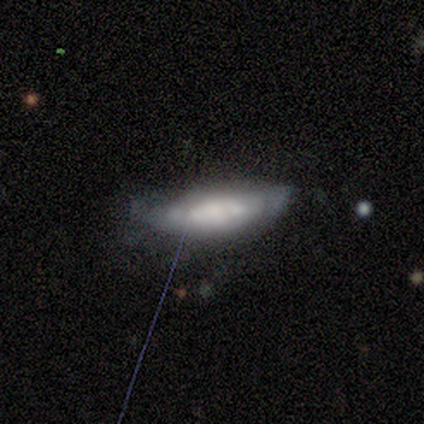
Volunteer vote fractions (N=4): smooth-or-featured: smooth: 75% | star or artifact: 25% | featured or disk: 0%
  how-rounded: in between: 67% | cigar-shaped: 33% | round: 0%
  merging: none: 67% | major disturbance: 33% | minor disturbance: 0% | merger: 0%